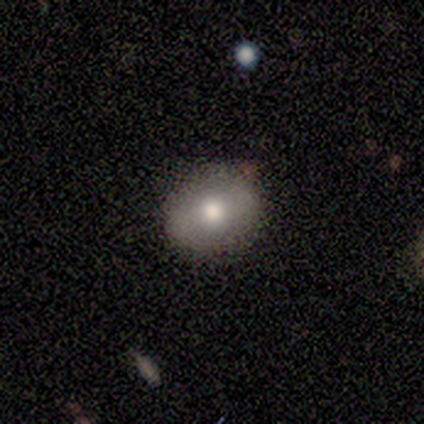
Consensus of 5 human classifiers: smooth_or_featured: smooth (p=0.60) [alt: featured or disk p=0.20]
how_rounded: in between (p=0.67) [alt: round p=0.33]
merging: none (p=1.00)